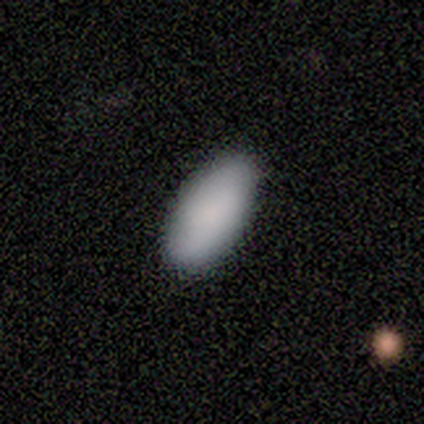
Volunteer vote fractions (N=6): Morphology: type=smooth (100%); roundness=in between (100%); merging=none (100%).